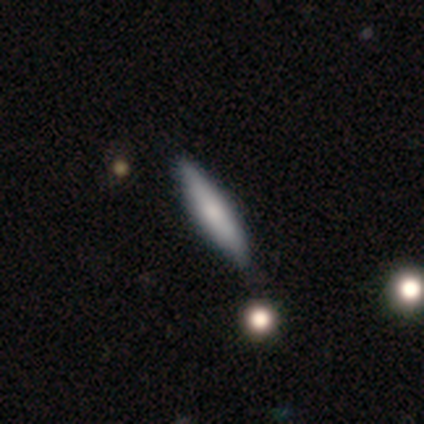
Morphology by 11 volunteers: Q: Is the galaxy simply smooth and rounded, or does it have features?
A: smooth — 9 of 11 (82%).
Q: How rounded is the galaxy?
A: cigar-shaped — 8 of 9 (89%).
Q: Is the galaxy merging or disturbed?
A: none — 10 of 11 (91%).